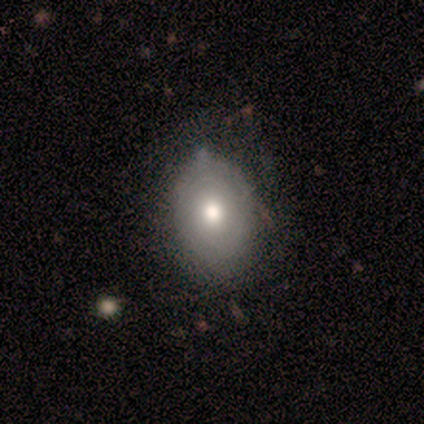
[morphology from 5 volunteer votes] Volunteers were most divided on "smooth or featured": smooth: 60%, featured or disk: 40%, star or artifact: 0%. More confident: how rounded — in between (67%); merging — none (60%).